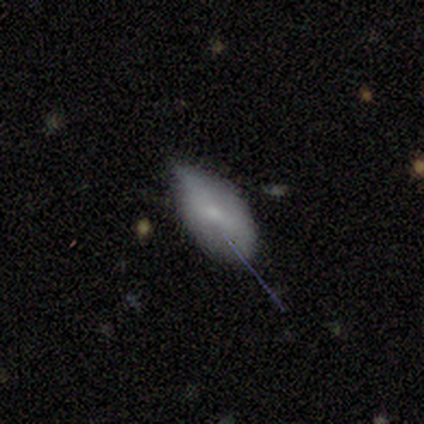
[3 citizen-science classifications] Smooth or featured? 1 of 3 (33%, tied with featured or disk and star or artifact) said smooth. How rounded? 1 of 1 (100%) said in between. Merging? 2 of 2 (100%) said minor disturbance.